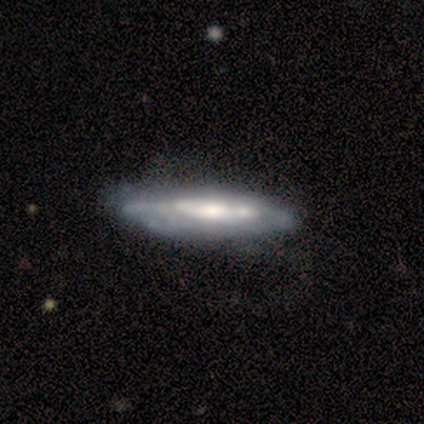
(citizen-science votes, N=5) This is clearly a featured or disk galaxy (100%). It is likely viewed edge-on (60%). Edge-on bulge: likely rounded (67%). Merging: likely none (60%).